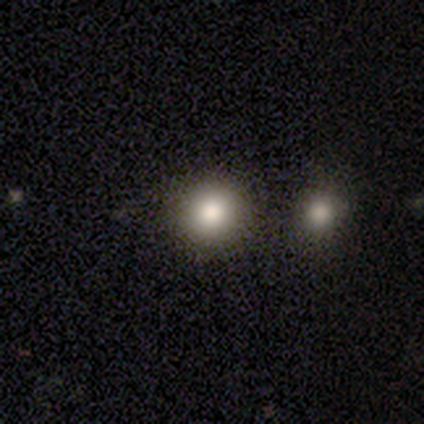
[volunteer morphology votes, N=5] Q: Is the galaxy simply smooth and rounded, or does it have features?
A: smooth — 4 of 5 (80%).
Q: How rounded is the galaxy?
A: round — 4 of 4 (100%).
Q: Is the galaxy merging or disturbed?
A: none — 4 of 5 (80%).